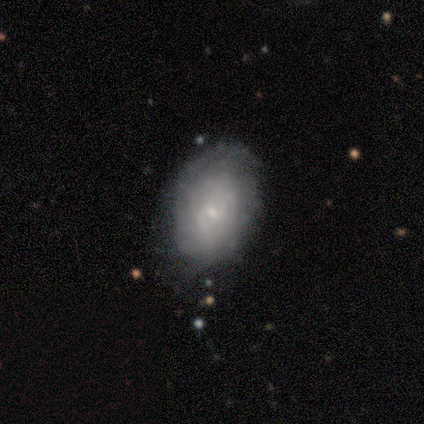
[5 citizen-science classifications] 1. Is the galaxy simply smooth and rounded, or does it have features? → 60% smooth, 40% featured or disk, 0% star or artifact.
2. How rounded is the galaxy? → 100% in between, 0% round, 0% cigar-shaped.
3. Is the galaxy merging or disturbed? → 80% none, 20% minor disturbance, 0% major disturbance, 0% merger.